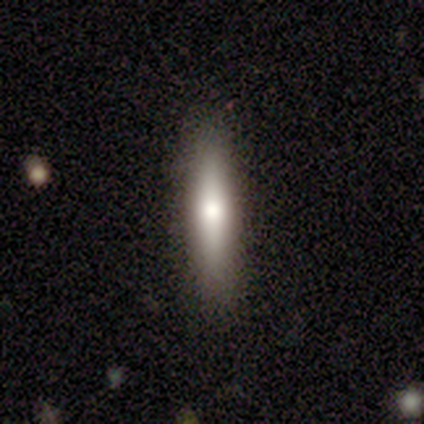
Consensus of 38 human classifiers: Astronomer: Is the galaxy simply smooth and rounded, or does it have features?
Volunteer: smooth — 63%.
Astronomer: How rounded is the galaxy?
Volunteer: cigar-shaped — 92%.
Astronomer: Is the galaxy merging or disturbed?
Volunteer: none — 92%.